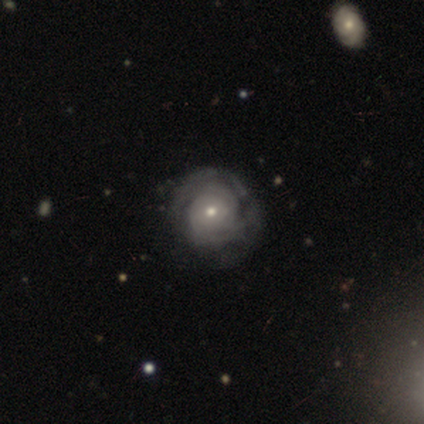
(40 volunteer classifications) Smooth or featured: featured or disk — 70% (smooth — 28%)
Edge-on disk: no — 96% (yes — 4%)
Bar: no — 96% (weak — 4%)
Spiral arms: yes — 96% (no — 4%)
Spiral winding: tight — 88% (loose — 8%)
Spiral arm count: can't tell — 65% (2 — 19%)
Bulge size: moderate — 52% (small — 44%)
Merging: none — 44% (minor disturbance — 18%)